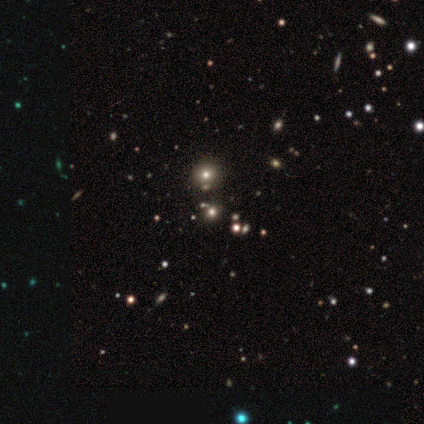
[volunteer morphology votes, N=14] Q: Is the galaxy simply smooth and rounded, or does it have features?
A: smooth — 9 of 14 (64%).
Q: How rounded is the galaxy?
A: round — 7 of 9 (78%).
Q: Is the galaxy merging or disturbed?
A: none — 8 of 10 (80%).